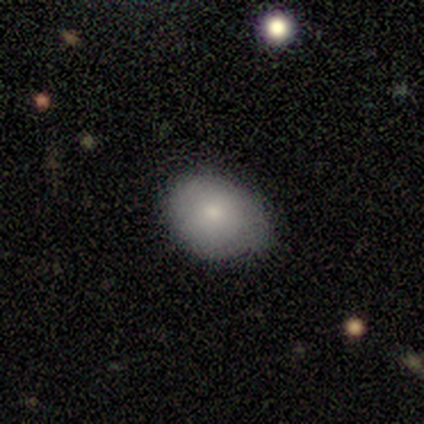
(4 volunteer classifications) This appears to be a smooth galaxy with no disk features (75%) that is in between round and cigar-shaped (67%). Merging: none (75%).